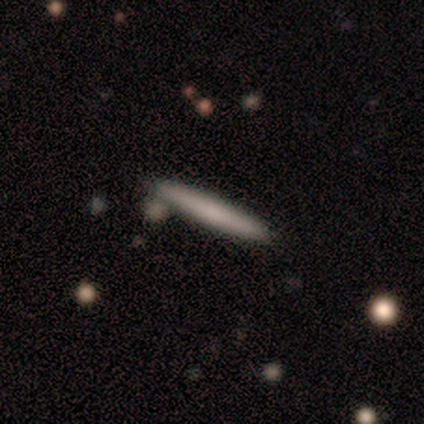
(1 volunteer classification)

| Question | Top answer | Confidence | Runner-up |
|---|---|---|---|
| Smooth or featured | smooth | 100% | — |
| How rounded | cigar-shaped | 100% | — |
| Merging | none | 100% | — |